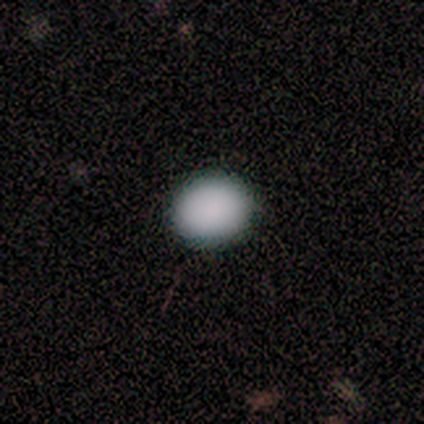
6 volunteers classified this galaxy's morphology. Q: Smooth or featured?
A: smooth (100%)
Q: How rounded?
A: round (83%); runner-up: in between (17%)
Q: Merging?
A: none (67%); runner-up: minor disturbance (33%)